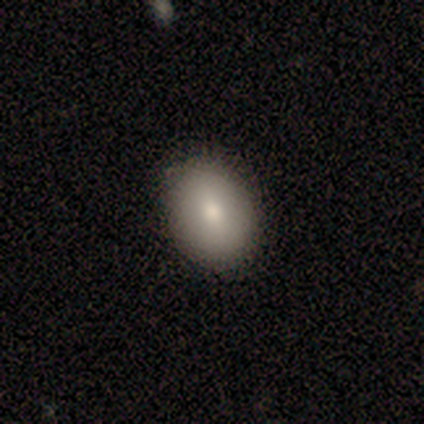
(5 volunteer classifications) smooth-or-featured: smooth: 80% | featured or disk: 20% | star or artifact: 0%
  how-rounded: round: 50% (tied) | in between: 50% (tied) | cigar-shaped: 0%
  merging: none: 100% | minor disturbance: 0% | major disturbance: 0% | merger: 0%